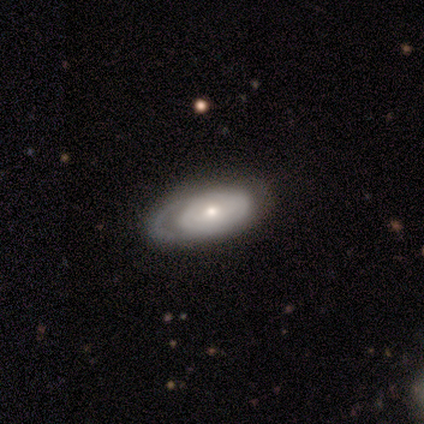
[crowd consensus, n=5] Smooth or featured? 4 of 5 (80%) said featured or disk. Edge-on disk? 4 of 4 (100%) said no. Bar? 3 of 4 (75%) said no. Spiral arms? 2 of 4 (50%, tied with no) said yes. Spiral winding? 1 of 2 (50%, tied with loose) said tight. Spiral arm count? 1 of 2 (50%, tied with can't tell) said 1. Bulge size? 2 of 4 (50%, tied with small) said moderate. Merging? 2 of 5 (40%, tied with minor disturbance) said none.